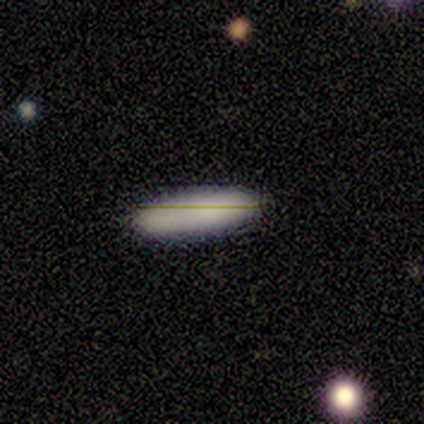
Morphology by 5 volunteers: Smooth or featured? 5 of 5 (100%) said smooth. How rounded? 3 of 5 (60%) said cigar-shaped. Merging? 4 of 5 (80%) said none.